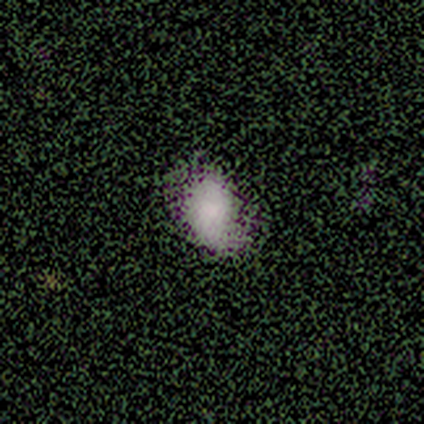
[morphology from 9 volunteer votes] type=smooth (78%); roundness=in between (86%); merging=none (43%, tied with minor disturbance).